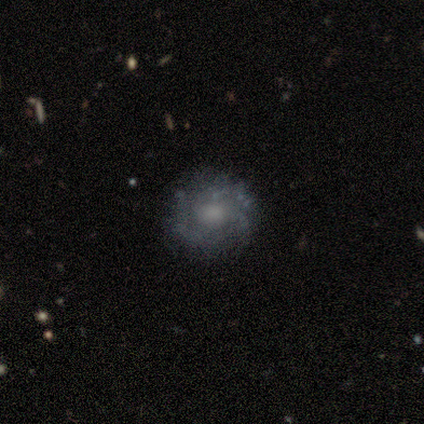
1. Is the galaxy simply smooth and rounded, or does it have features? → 60% featured or disk, 40% smooth, 0% star or artifact.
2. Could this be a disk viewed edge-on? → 100% no, 0% yes.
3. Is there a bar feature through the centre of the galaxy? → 100% no, 0% strong, 0% weak.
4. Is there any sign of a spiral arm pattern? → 67% yes, 33% no.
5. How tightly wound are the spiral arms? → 50% tight (tied), 50% medium (tied), 0% loose.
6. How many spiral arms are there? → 50% 1 (tied), 50% can't tell (tied), 0% 2, 0% 3, 0% 4, 0% more than 4.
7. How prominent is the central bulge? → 67% none, 33% moderate, 0% dominant, 0% large, 0% small.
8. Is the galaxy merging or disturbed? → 60% none, 40% major disturbance, 0% minor disturbance, 0% merger.